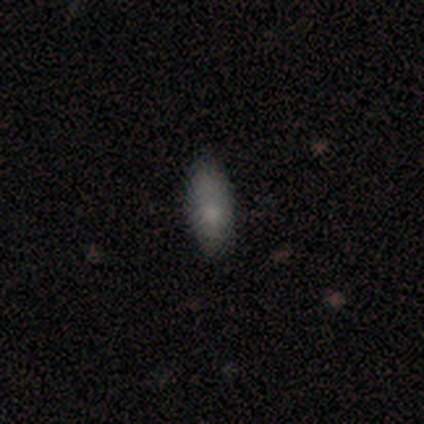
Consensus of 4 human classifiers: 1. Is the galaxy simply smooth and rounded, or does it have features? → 75% smooth, 25% star or artifact, 0% featured or disk.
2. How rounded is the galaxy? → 67% in between, 33% cigar-shaped, 0% round.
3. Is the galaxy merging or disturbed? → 100% none, 0% minor disturbance, 0% major disturbance, 0% merger.